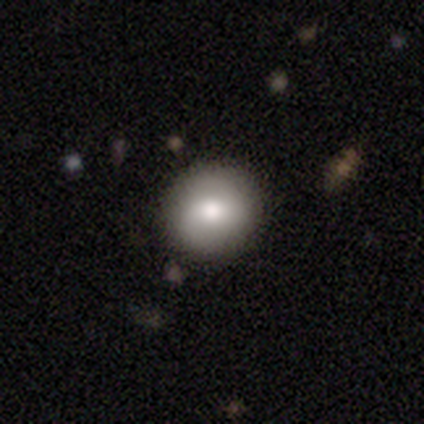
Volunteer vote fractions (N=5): Q: Smooth or featured?
A: smooth (80%); runner-up: featured or disk (20%)
Q: How rounded?
A: round (100%)
Q: Merging?
A: none (100%)